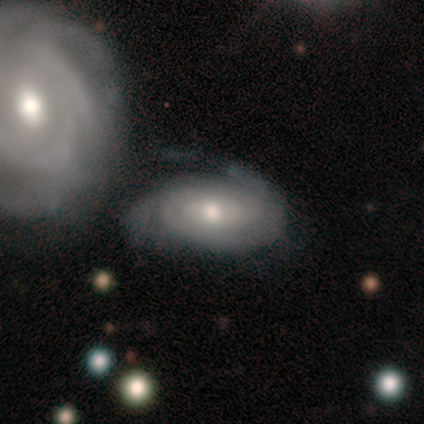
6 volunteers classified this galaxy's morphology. Smooth or featured? featured or disk (67%)
Edge-on disk? no (100%)
Bar? no (100%)
Spiral arms? yes (100%)
Spiral winding? tight (75%)
Spiral arm count? can't tell (75%)
Bulge size? moderate (75%)
Merging? none (60%)